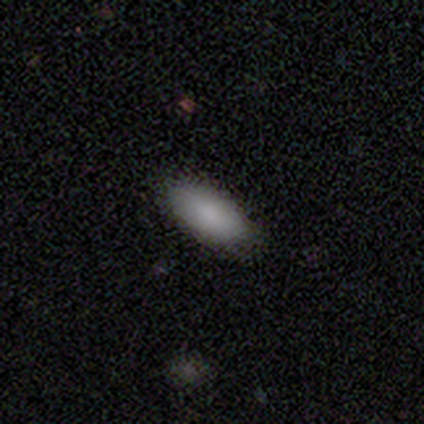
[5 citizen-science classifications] Smooth or featured? smooth (80%)
How rounded? in between (100%)
Merging? none (60%)